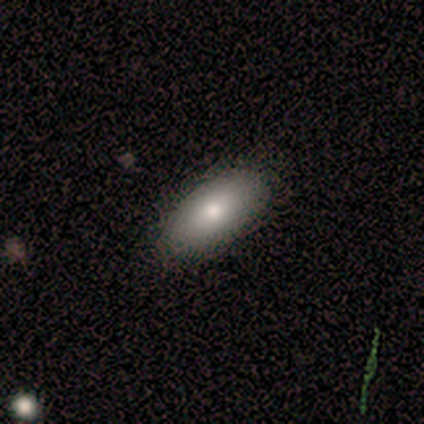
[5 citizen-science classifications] This is clearly a smooth galaxy (100%). How rounded: clearly in between (80%). Merging: clearly none (100%).